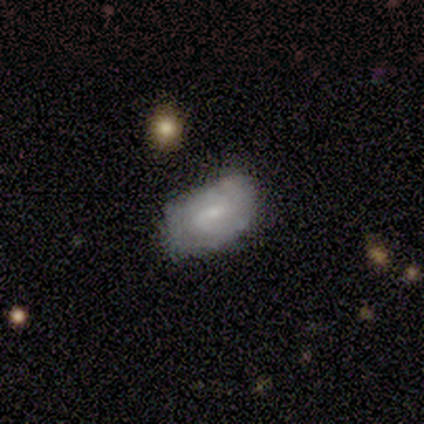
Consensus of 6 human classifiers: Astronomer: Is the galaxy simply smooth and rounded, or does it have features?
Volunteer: featured or disk — 67%.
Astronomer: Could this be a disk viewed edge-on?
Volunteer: no — 100%.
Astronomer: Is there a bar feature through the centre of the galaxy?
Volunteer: no — 100%.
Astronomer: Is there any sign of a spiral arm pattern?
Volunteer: yes — 100%.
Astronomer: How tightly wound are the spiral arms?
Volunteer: loose — 75%.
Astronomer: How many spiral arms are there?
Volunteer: can't tell — 75%.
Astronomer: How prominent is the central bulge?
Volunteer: small — 75%.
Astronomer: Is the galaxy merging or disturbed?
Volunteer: none — 83%.